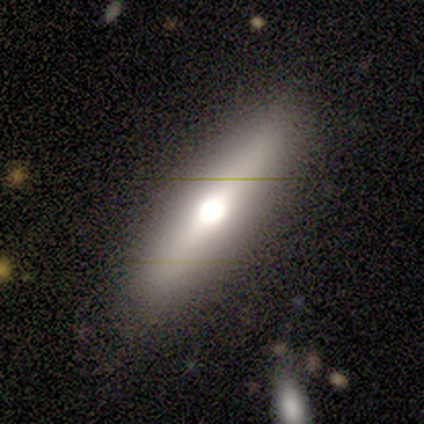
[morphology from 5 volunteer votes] This is likely a featured or disk galaxy (60%). It is clearly viewed edge-on (100%). Edge-on bulge: clearly rounded (100%). Merging: likely none (60%).